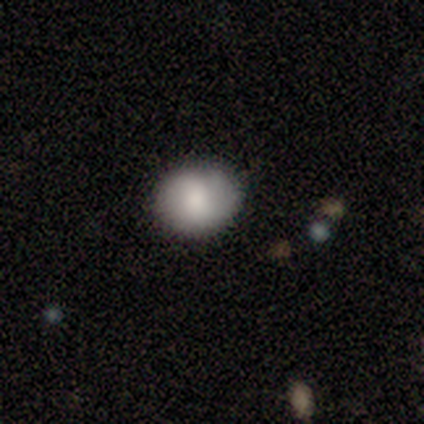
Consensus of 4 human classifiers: smooth_or_featured: smooth (p=0.75) [alt: featured or disk p=0.25]
how_rounded: round (p=0.67) [alt: in between p=0.33]
merging: none (p=0.50) [tied with: minor disturbance p=0.50]